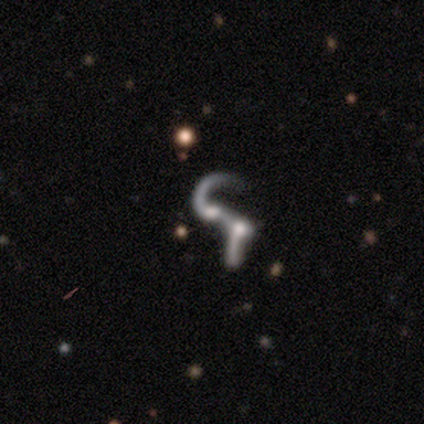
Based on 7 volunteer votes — Q: Smooth or featured?
A: featured or disk (86%); runner-up: star or artifact (14%)
Q: Edge-on disk?
A: no (100%)
Q: Bar?
A: weak (50%); tied with: no (50%)
Q: Spiral arms?
A: yes (50%); tied with: no (50%)
Q: Spiral winding?
A: loose (67%); runner-up: medium (33%)
Q: Spiral arm count?
A: 1 (33%); tied with: 2 (33%); can't tell (33%)
Q: Bulge size?
A: none (67%); runner-up: large (17%)
Q: Merging?
A: merger (67%); runner-up: none (17%)